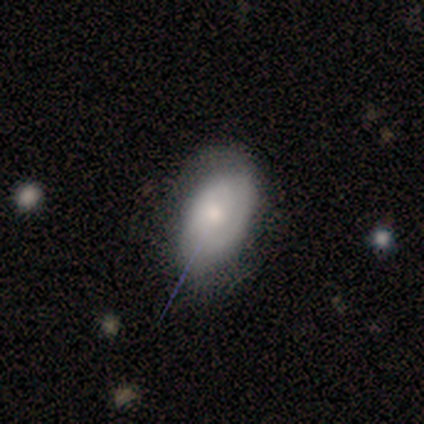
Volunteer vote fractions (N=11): Q: Smooth or featured?
A: smooth (64%); runner-up: featured or disk (36%)
Q: How rounded?
A: in between (100%)
Q: Merging?
A: none (55%); runner-up: minor disturbance (45%)